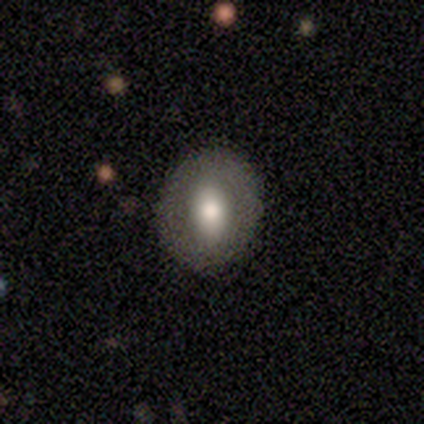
Q: Smooth or featured?
A: smooth (83%); runner-up: featured or disk (17%)
Q: How rounded?
A: round (60%); runner-up: in between (40%)
Q: Merging?
A: none (100%)